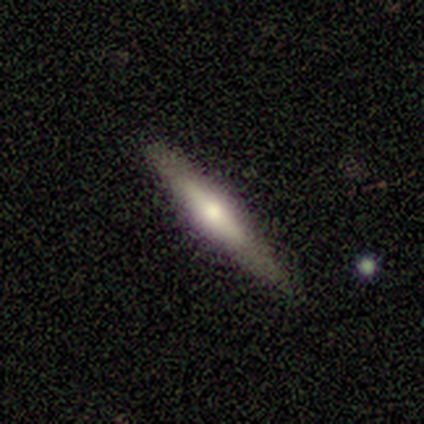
Smooth or featured? featured or disk (55%)
Edge-on disk? yes (95%)
Edge-on bulge? rounded (86%)
Merging? none (82%)